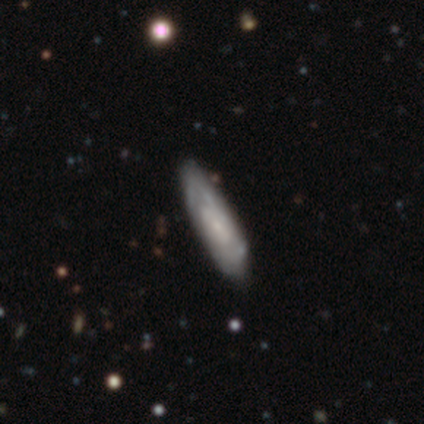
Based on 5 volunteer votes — This appears to be a featured or disk galaxy (80%) with a weak bar (75%), 2 (67%) tight (67%) spiral arms (75%) and a small central bulge (75%). Merging: none (60%).